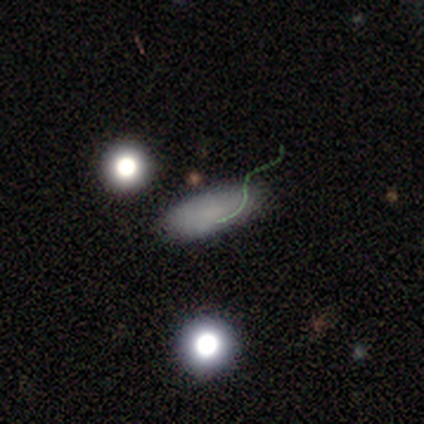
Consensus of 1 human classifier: Smooth or featured: smooth — 100%
How rounded: in between — 100%
Merging: none — 100%